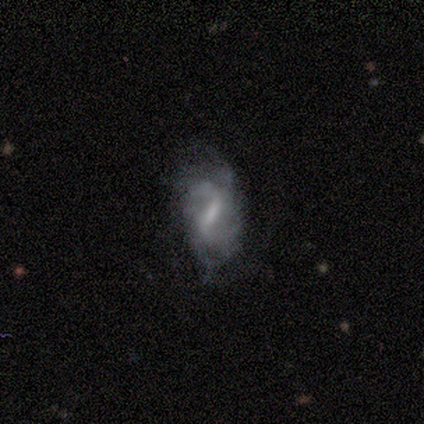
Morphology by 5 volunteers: Smooth or featured: featured or disk — 80% (smooth — 20%)
Edge-on disk: no — 75% (yes — 25%)
Bar: strong — 67% (no — 33%)
Spiral arms: yes — 67% (no — 33%)
Spiral winding: medium — 100%
Spiral arm count: 2 — 50% (tied with 4 — 50%)
Bulge size: large — 33% (tied with small — 33%; none — 33%)
Merging: none — 40% (tied with major disturbance — 40%)